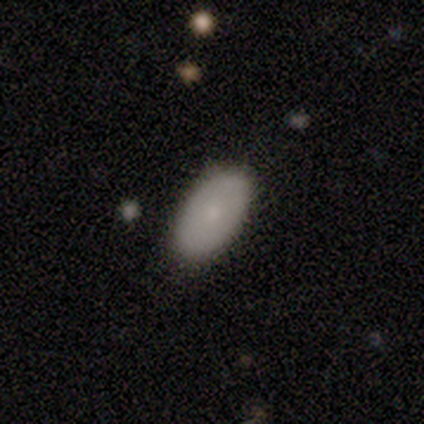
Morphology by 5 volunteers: Smooth or featured? smooth (60%)
How rounded? in between (100%)
Merging? none (100%)